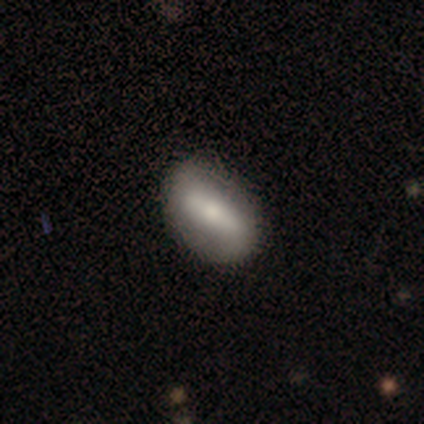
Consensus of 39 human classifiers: smooth_or_featured: smooth (p=0.49) [alt: featured or disk p=0.41]
how_rounded: in between (p=0.84) [alt: cigar-shaped p=0.16]
merging: none (p=0.86) [alt: minor disturbance p=0.14]